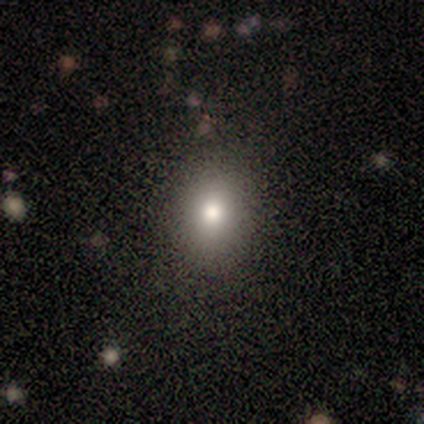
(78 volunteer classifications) A smooth galaxy with no disk features (83%) that is in between round and cigar-shaped (60%).

Vote fractions:
- Smooth or featured? smooth: 83% / star or artifact: 9% / featured or disk: 8%
- How rounded? in between: 60% / round: 37% / cigar-shaped: 3%
- Merging? none: 45% / minor disturbance: 7% / merger: 1% / major disturbance: 0%